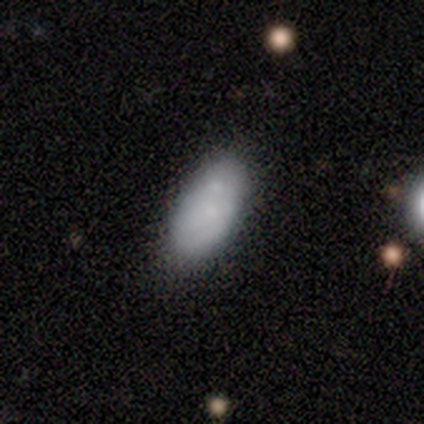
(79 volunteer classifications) smooth_or_featured: smooth (p=0.75) [alt: featured or disk p=0.23]
how_rounded: in between (p=1.00)
merging: none (p=0.36) [alt: minor disturbance p=0.12]